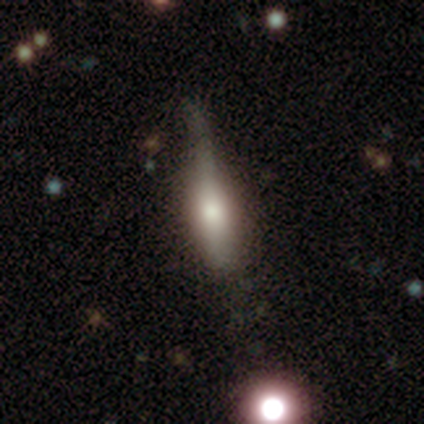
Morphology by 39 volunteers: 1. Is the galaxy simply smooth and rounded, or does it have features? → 49% smooth, 46% featured or disk, 5% star or artifact.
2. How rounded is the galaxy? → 53% cigar-shaped, 47% in between, 0% round.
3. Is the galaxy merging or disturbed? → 46% none, 35% minor disturbance, 19% major disturbance, 0% merger.